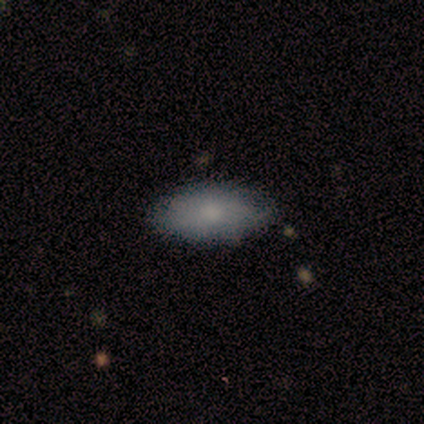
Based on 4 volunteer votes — Volunteers were most divided on "merging" (2-way tie): none: 50%, minor disturbance: 50%, major disturbance: 0%, merger: 0%. More confident: smooth or featured — smooth (100%); how rounded — in between (75%).